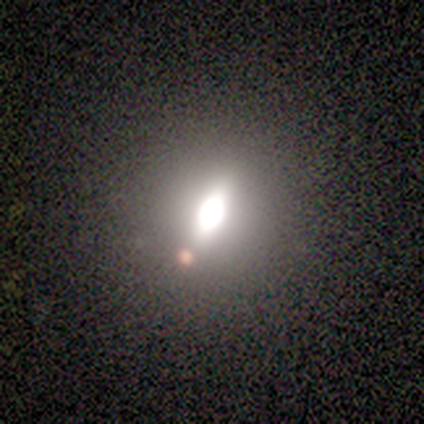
A smooth galaxy with no disk features (100%) that is in between round and cigar-shaped (75%). Merging: none (50%).